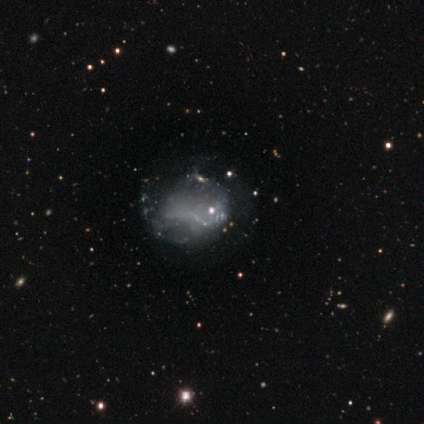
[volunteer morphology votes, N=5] smooth 60%, featured or disk 40%, star or artifact 0%. Down the decision tree: how rounded — in between (100%); merging — none (60%).